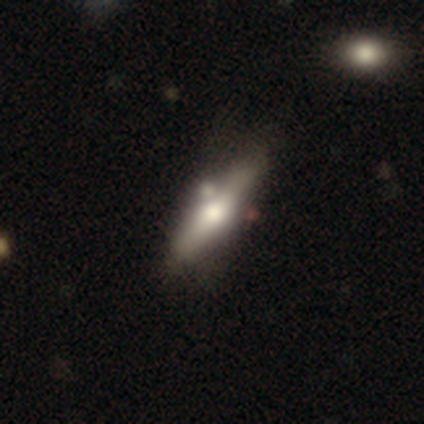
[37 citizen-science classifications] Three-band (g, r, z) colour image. It shows a featured or disk galaxy (49%) viewed edge-on (100%) with a rounded central bulge (100%). Merging: minor disturbance (52%).